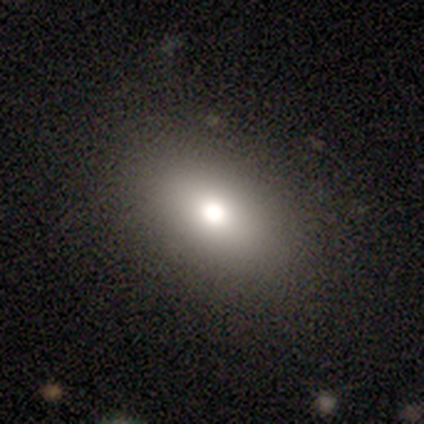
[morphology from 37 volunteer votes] This is likely a smooth galaxy (65%). How rounded: clearly in between (92%). Merging: clearly none (84%).